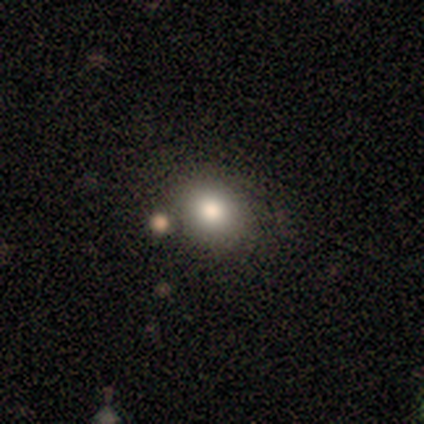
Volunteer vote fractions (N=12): Smooth or featured? smooth (100%)
How rounded? round (50%, tied with in between)
Merging? none (67%)